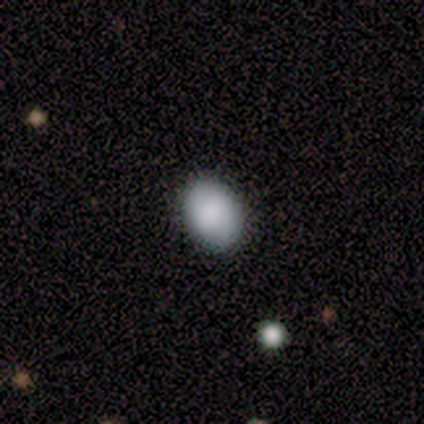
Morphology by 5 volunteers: Overall: smooth (100%). How rounded: in between (80%). Merging: none (100%).